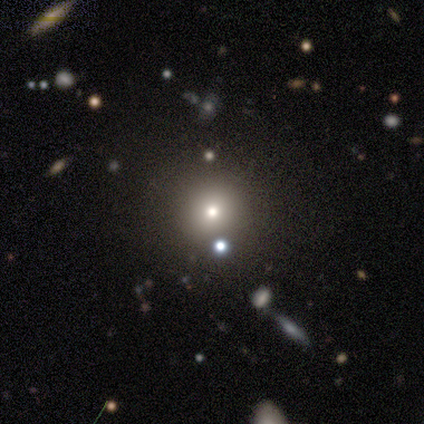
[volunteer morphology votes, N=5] This appears to be a smooth galaxy with no disk features (40%, tied with featured or disk) that is round (50%, tied with cigar-shaped). Merging: none (75%).